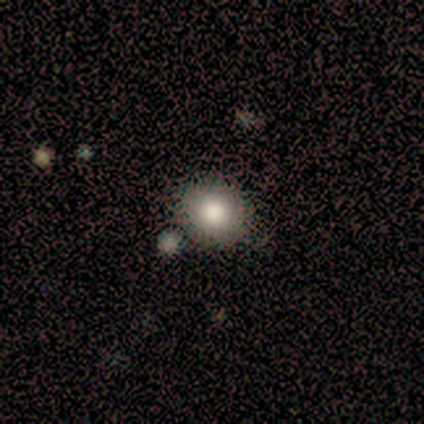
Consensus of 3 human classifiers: Smooth or featured?
  - smooth: 100% *
  - featured or disk: 0%
  - star or artifact: 0%
How rounded?
  - round: 100% *
  - in between: 0%
  - cigar-shaped: 0%
Merging?
  - none: 100% *
  - minor disturbance: 0%
  - major disturbance: 0%
  - merger: 0%